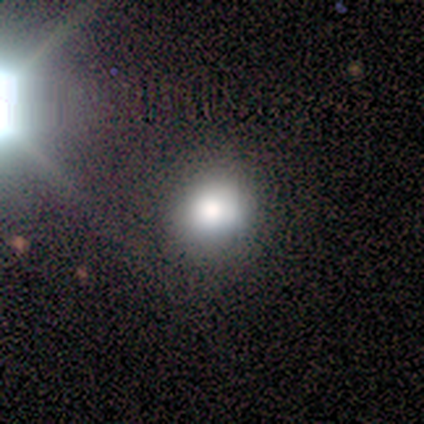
Smooth or featured?
  - smooth: 60% *
  - featured or disk: 20%
  - star or artifact: 20%
How rounded?
  - round: 100% *
  - in between: 0%
  - cigar-shaped: 0%
Merging?
  - none: 75% *
  - minor disturbance: 25%
  - major disturbance: 0%
  - merger: 0%